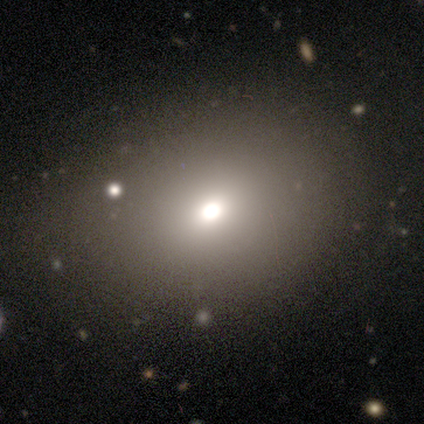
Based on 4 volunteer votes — Smooth or featured?
  - smooth: 50% *
  - featured or disk: 25%
  - star or artifact: 25%
How rounded?
  - in between: 100% *
  - round: 0%
  - cigar-shaped: 0%
Merging?
  - none: 100% *
  - minor disturbance: 0%
  - major disturbance: 0%
  - merger: 0%